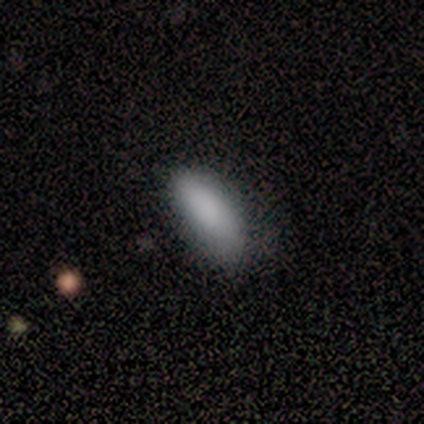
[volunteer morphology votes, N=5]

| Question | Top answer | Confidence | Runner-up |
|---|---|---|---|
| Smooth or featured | smooth | 60% | featured or disk (20%) |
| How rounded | in between | 100% | — |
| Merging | minor disturbance | 100% | — |